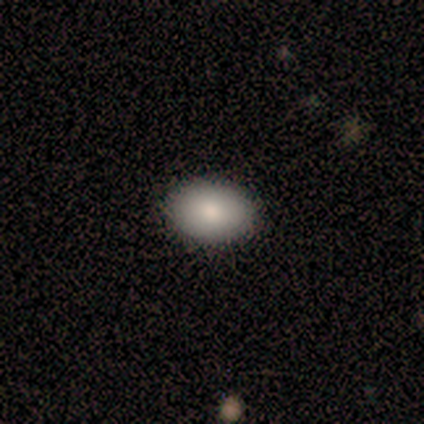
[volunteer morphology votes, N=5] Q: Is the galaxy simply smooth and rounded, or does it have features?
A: smooth — 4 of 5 (80%).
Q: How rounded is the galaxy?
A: in between — 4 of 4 (100%).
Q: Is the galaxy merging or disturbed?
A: none — 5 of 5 (100%).